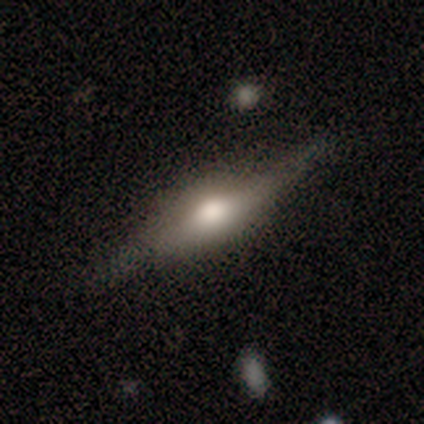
A featured or disk galaxy (60%) viewed edge-on (100%) with a rounded central bulge (67%).

Vote fractions:
- Smooth or featured? featured or disk: 60% / smooth: 40% / star or artifact: 0%
- Edge-on disk? yes: 100% / no: 0%
- Edge-on bulge? rounded: 67% / boxy: 33% / none: 0%
- Merging? none: 60% / major disturbance: 40% / minor disturbance: 0% / merger: 0%